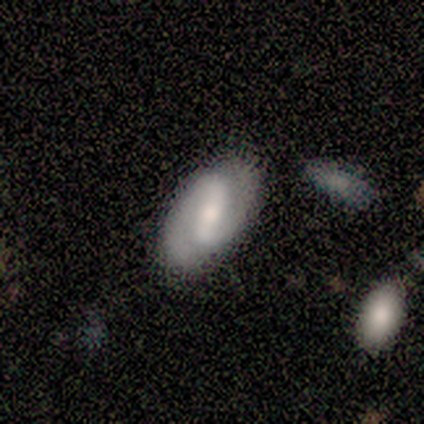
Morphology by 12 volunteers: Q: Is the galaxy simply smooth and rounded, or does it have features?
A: featured or disk — 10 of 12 (83%).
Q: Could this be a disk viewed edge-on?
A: no — 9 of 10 (90%).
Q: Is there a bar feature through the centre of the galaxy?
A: weak — 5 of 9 (56%).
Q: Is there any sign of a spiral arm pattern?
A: yes — 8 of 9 (89%).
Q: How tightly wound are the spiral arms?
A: tight — 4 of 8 (50%, tied with medium).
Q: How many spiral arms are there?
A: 2 — 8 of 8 (100%).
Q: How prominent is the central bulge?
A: moderate — 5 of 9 (56%).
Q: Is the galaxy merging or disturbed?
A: none — 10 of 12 (83%).